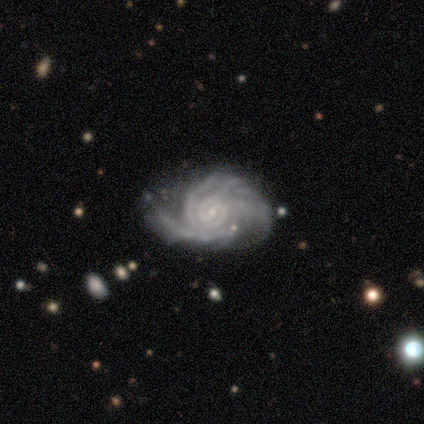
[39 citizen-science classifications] Smooth or featured?
  - featured or disk: 97% *
  - star or artifact: 3%
  - smooth: 0%
Edge-on disk?
  - no: 97% *
  - yes: 3%
Bar?
  - weak: 46% *
  - no: 41%
  - strong: 14%
Spiral arms?
  - yes: 100% *
  - no: 0%
Spiral winding?
  - tight: 62% *
  - medium: 27%
  - loose: 11%
Spiral arm count?
  - can't tell: 30% *
  - more than 4: 24%
  - 3: 19%
  - 2: 14%
  - 4: 11%
  - 1: 3%
Bulge size?
  - small: 89% *
  - moderate: 5%
  - none: 5%
  - dominant: 0%
  - large: 0%
Merging?
  - none: 24% *
  - minor disturbance: 21%
  - major disturbance: 11%
  - merger: 3%